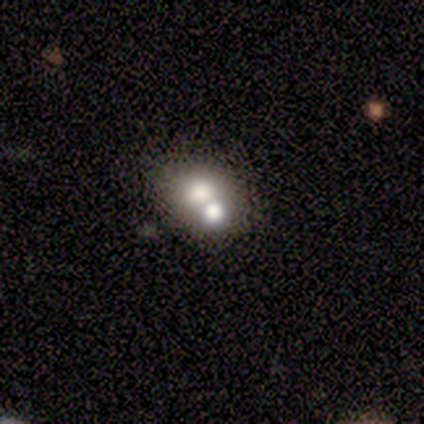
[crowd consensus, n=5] Smooth or featured: smooth — 60% (featured or disk — 40%)
How rounded: round — 67% (in between — 33%)
Merging: none — 60% (merger — 40%)